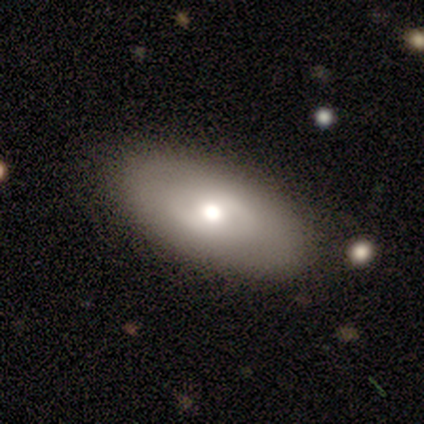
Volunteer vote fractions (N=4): Smooth or featured? 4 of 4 (100%) said smooth. How rounded? 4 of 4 (100%) said in between. Merging? 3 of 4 (75%) said none.